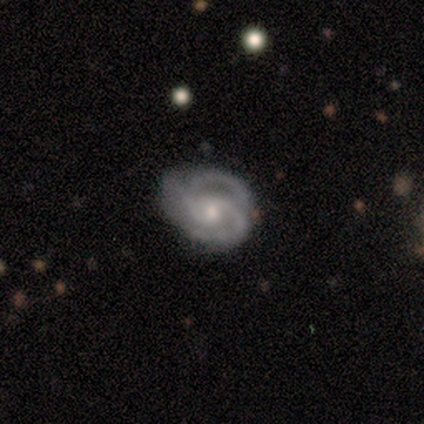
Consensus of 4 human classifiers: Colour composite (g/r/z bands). It shows a featured or disk galaxy (100%) with no bar (100%), 2 (50%, tied with 3) tight (75%) spiral arms (100%) and a small central bulge (75%). Merging: none (50%, tied with minor disturbance).